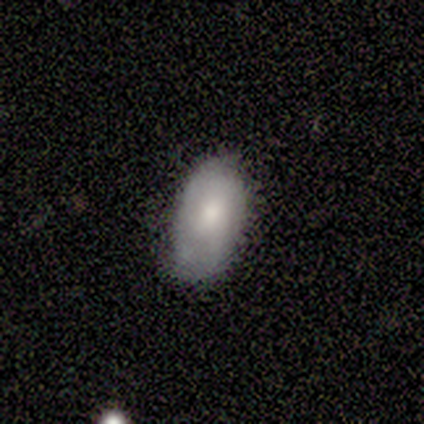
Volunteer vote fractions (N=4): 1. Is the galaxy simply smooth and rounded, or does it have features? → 75% smooth, 25% featured or disk, 0% star or artifact.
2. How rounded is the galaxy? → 100% in between, 0% round, 0% cigar-shaped.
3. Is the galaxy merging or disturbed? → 50% none (tied), 50% minor disturbance (tied), 0% major disturbance, 0% merger.